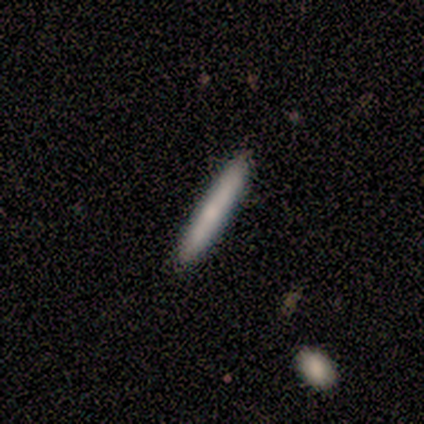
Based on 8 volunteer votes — Morphology: type=smooth (100%); roundness=cigar-shaped (88%); merging=none (88%).